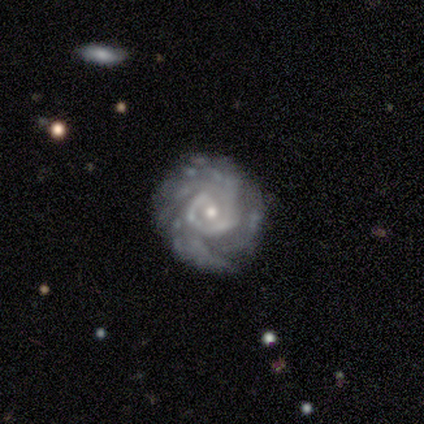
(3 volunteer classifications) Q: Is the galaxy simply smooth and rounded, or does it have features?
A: featured or disk — 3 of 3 (100%).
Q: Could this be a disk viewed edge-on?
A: no — 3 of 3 (100%).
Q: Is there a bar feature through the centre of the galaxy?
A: strong — 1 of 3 (33%, tied with weak and no).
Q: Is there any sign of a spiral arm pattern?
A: yes — 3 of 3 (100%).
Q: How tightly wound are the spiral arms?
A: tight — 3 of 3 (100%).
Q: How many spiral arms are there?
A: can't tell — 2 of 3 (67%).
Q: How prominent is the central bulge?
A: small — 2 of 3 (67%).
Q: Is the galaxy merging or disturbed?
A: none — 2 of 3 (67%).